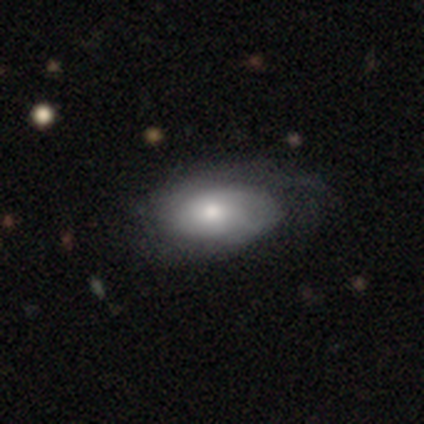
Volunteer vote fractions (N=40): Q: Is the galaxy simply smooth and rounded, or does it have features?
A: featured or disk — 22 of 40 (55%).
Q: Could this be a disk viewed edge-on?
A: no — 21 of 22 (95%).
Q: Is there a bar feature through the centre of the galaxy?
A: no — 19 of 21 (90%).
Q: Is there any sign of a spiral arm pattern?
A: yes — 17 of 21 (81%).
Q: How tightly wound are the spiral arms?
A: tight — 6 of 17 (35%, tied with loose).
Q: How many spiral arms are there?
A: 2 — 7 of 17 (41%).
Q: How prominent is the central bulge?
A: moderate — 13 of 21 (62%).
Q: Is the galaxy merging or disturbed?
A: none — 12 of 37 (32%).